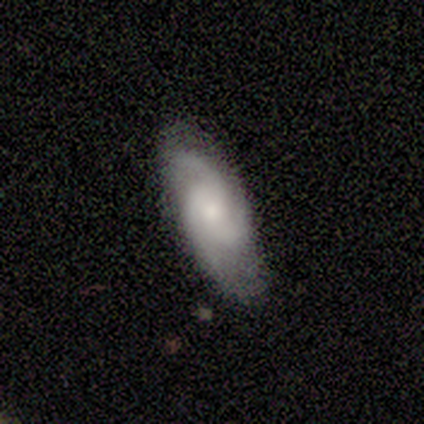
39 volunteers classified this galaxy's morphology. type=featured or disk (79%); edge-on=no (90%); bar=no (86%); spiral arms=yes (96%); winding=medium (52%); arm count=3 (59%); bulge=small (46%); merging=none (82%).